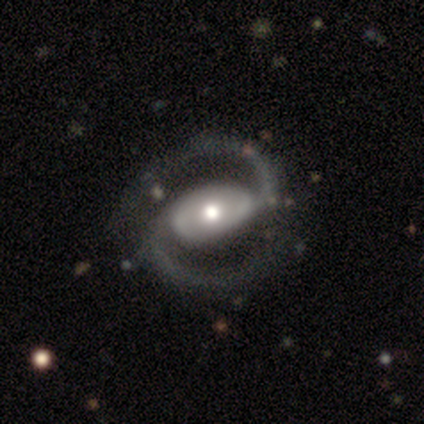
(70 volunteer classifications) This is clearly a featured or disk galaxy (93%). It is clearly not viewed edge-on (97%). Bar: possibly no (46%). Spiral arm pattern: clearly yes (100%). Spiral arm count: clearly 2 (100%). Spiral winding: possibly medium (51%). Central bulge: likely moderate (70%). Merging: likely none (79%).